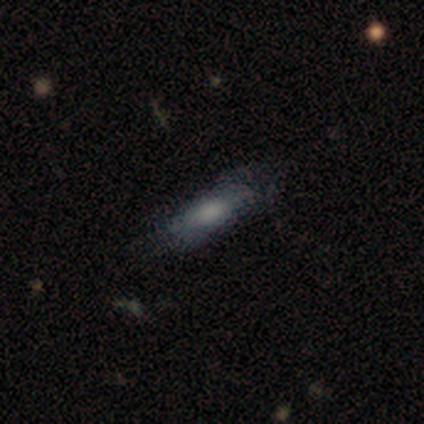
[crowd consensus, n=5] This is likely a smooth galaxy (60%). How rounded: likely in between (67%). Merging: clearly none (100%).